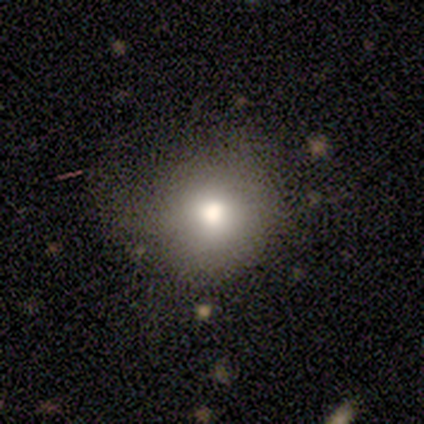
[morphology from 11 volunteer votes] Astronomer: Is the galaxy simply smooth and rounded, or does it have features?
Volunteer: smooth — 91%.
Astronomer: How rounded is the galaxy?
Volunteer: round — 100%.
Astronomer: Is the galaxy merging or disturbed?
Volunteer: none — 91%.